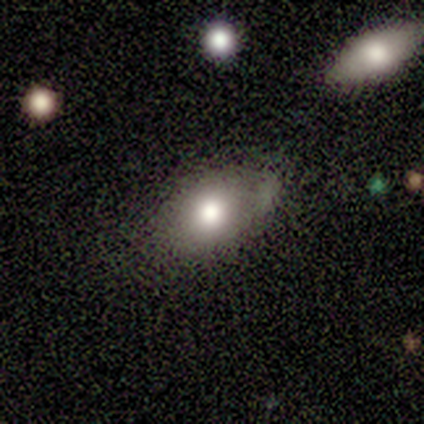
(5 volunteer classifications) This appears to be a featured or disk galaxy (40%, tied with star or artifact) with no bar (100%), no spiral arms (100%) and a moderate central bulge (100%). Merging: none (67%).